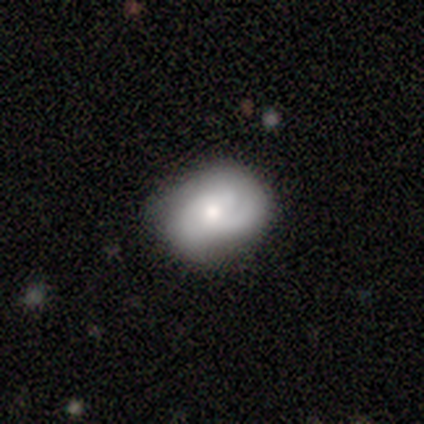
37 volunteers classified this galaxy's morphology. Q: Smooth or featured?
A: featured or disk (54%); runner-up: smooth (41%)
Q: Edge-on disk?
A: no (95%); runner-up: yes (5%)
Q: Bar?
A: no (68%); runner-up: weak (32%)
Q: Spiral arms?
A: yes (100%)
Q: Spiral winding?
A: tight (47%); tied with: medium (47%)
Q: Spiral arm count?
A: can't tell (37%); runner-up: 3 (26%)
Q: Bulge size?
A: moderate (63%); runner-up: small (32%)
Q: Merging?
A: none (63%); runner-up: minor disturbance (26%)